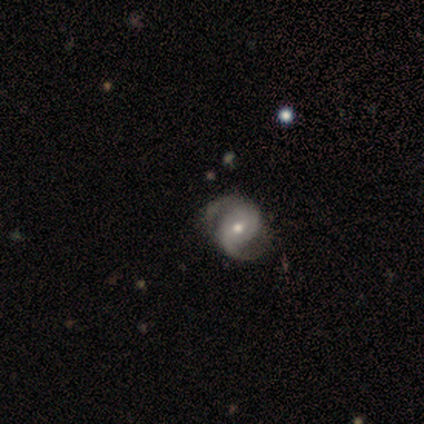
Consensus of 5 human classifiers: Smooth or featured? featured or disk (100%)
Edge-on disk? no (100%)
Bar? no (60%)
Spiral arms? yes (100%)
Spiral winding? medium (40%, tied with loose)
Spiral arm count? 2 (100%)
Bulge size? moderate (60%)
Merging? none (40%, tied with minor disturbance)